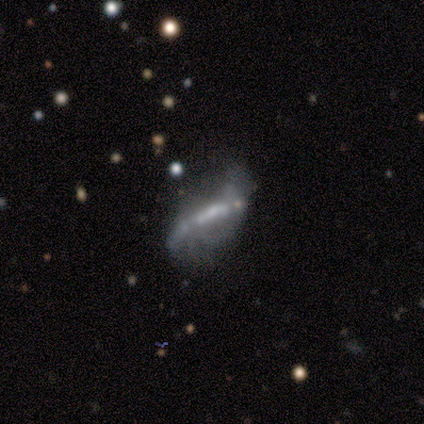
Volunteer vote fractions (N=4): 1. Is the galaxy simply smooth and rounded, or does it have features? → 50% featured or disk (tied), 50% star or artifact (tied), 0% smooth.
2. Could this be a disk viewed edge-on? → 100% no, 0% yes.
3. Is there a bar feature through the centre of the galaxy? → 50% strong (tied), 50% weak (tied), 0% no.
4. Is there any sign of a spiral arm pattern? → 50% yes (tied), 50% no (tied).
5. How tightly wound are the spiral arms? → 100% loose, 0% tight, 0% medium.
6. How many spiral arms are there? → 100% 2, 0% 1, 0% 3, 0% 4, 0% more than 4, 0% can't tell.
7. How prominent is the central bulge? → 50% moderate (tied), 50% none (tied), 0% dominant, 0% large, 0% small.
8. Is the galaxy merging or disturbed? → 100% none, 0% minor disturbance, 0% major disturbance, 0% merger.